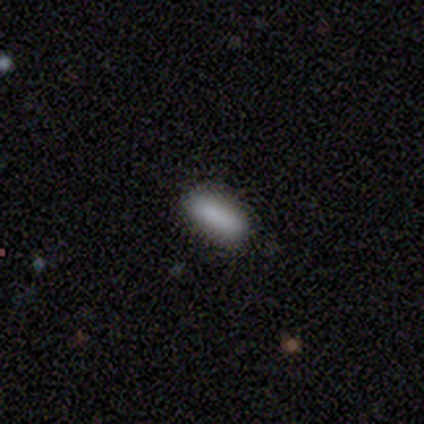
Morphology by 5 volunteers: Smooth or featured? 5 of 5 (100%) said smooth. How rounded? 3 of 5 (60%) said in between. Merging? 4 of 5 (80%) said none.